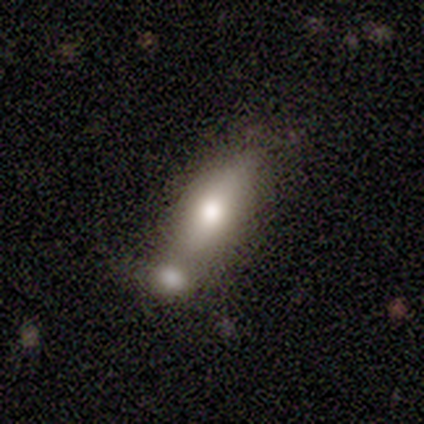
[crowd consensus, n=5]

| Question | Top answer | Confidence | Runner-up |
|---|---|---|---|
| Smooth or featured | smooth | 60% | featured or disk (20%) |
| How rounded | cigar-shaped | 67% | in between (33%) |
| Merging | merger | 75% | none (25%) |